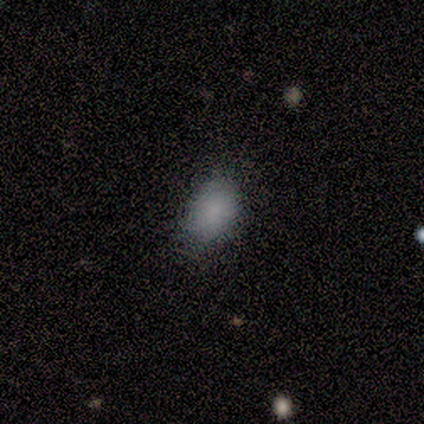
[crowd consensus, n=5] Morphology: type=smooth (80%); roundness=in between (75%); merging=none (80%).